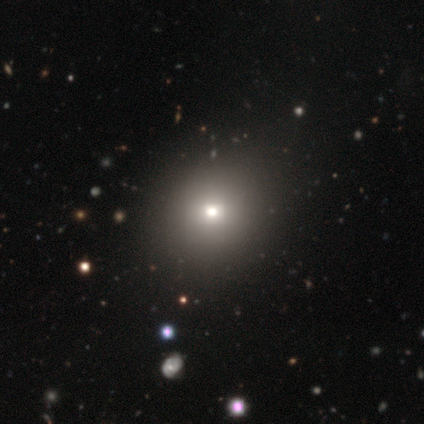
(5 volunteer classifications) smooth 60%, featured or disk 20%, star or artifact 20%. Down the decision tree: how rounded — in between (67%); merging — none (100%).